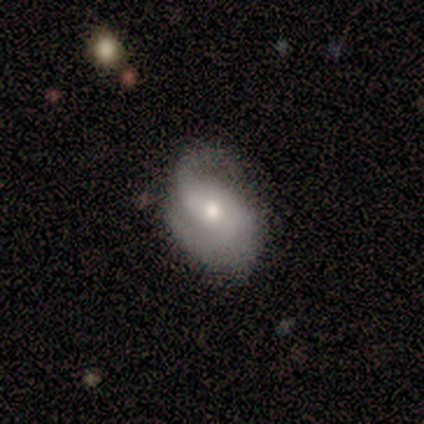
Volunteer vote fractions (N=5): Overall: featured or disk (60%; smooth 40%). Edge-on disk: no (100%). Bar: weak (67%; no 33%). Spiral arms: yes (100%). Spiral arm count: 2 (100%). Spiral winding: loose (67%; medium 33%). Bulge size: moderate (67%; small 33%). Merging: none (40%, tied with minor disturbance).